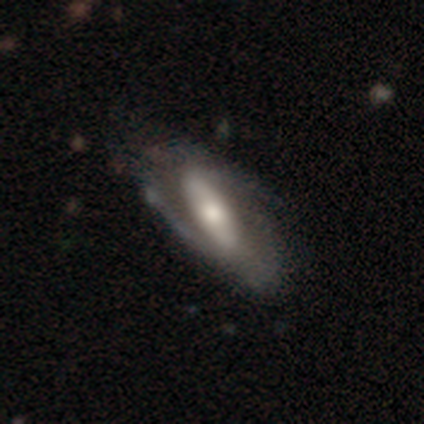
Smooth or featured? featured or disk (78%)
Edge-on disk? no (94%)
Bar? strong (55%)
Spiral arms? yes (84%)
Spiral winding? medium (43%)
Spiral arm count? 2 (80%)
Bulge size? moderate (45%)
Merging? none (34%)